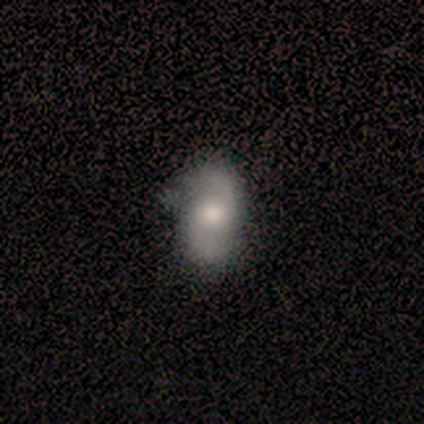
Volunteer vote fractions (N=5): This appears to be a featured or disk galaxy (80%) with a weak bar (67%), 2 (100%) loose (67%) spiral arms (100%) and a moderate central bulge (67%). Merging: none (60%).